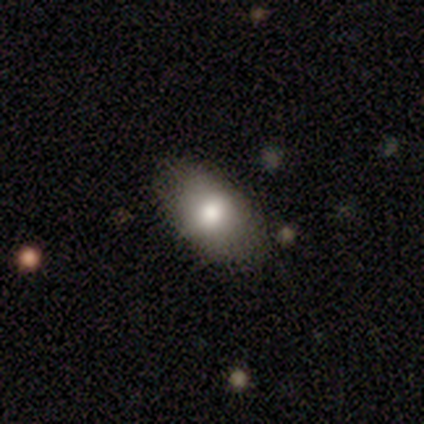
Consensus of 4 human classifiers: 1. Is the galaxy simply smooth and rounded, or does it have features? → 50% star or artifact, 25% smooth, 25% featured or disk.